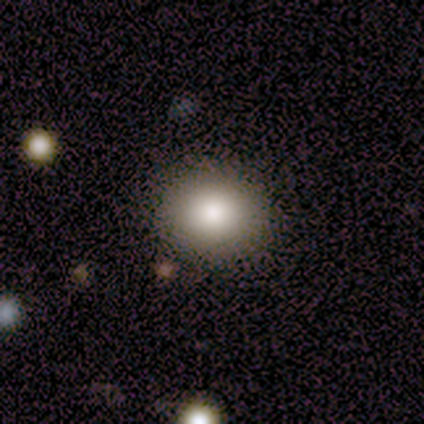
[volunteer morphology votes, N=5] type=smooth (80%); roundness=round (50%, tied with in between); merging=none (80%).